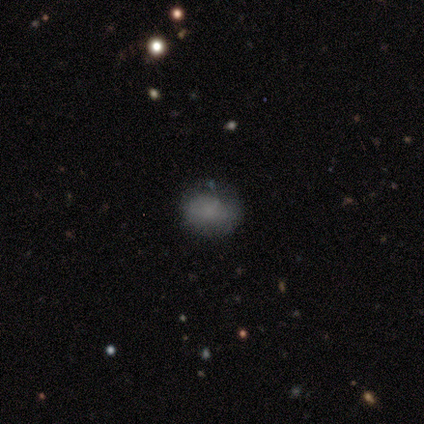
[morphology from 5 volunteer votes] Smooth or featured? 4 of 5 (80%) said smooth. How rounded? 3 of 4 (75%) said in between. Merging? 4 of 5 (80%) said none.